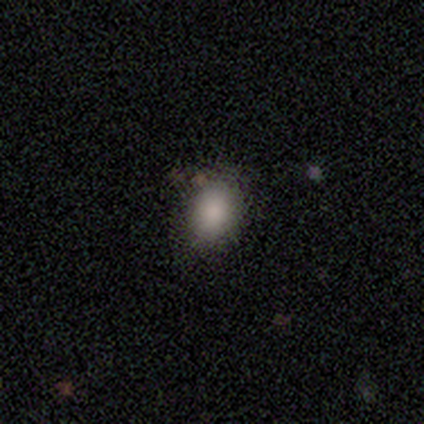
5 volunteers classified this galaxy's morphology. type=smooth (100%); roundness=in between (80%); merging=none (100%).